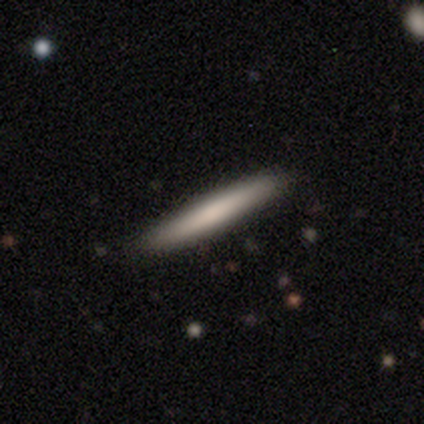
Volunteers were most divided on "merging": none: 47%, minor disturbance: 3%, major disturbance: 1%, merger: 1%. More confident: how rounded — cigar-shaped (91%); smooth or featured — smooth (81%).